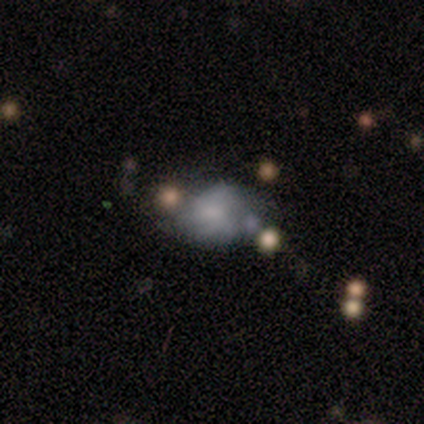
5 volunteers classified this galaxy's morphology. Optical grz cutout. It shows a featured or disk galaxy (80%) with no bar (67%), no spiral arms (67%) and no central bulge (67%). Merging: minor disturbance (40%).